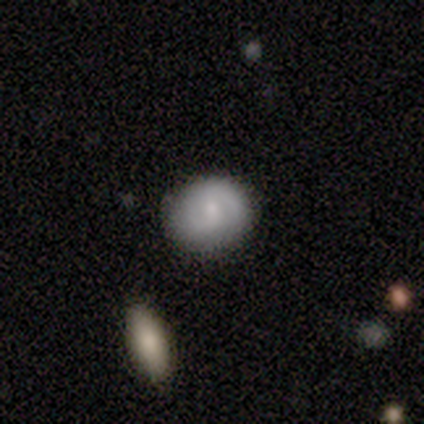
Overall: smooth (60%; featured or disk 40%). How rounded: in between (67%; round 33%). Merging: none (60%; minor disturbance 40%).